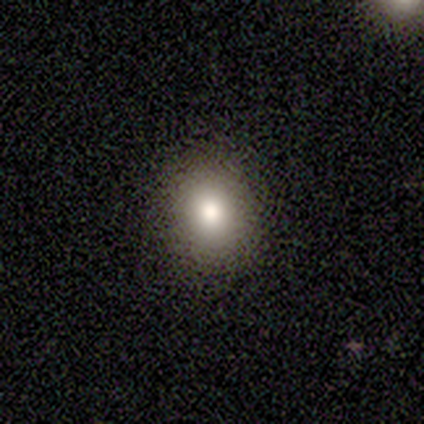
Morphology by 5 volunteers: Smooth or featured? smooth (100%)
How rounded? round (60%)
Merging? none (80%)